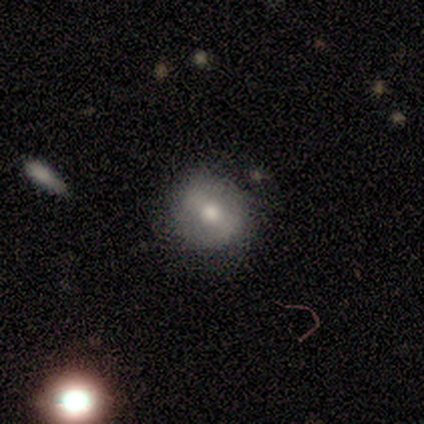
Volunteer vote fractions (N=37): smooth 46%, featured or disk 41%, star or artifact 14%. Down the decision tree: how rounded — round (88%); merging — none (91%).